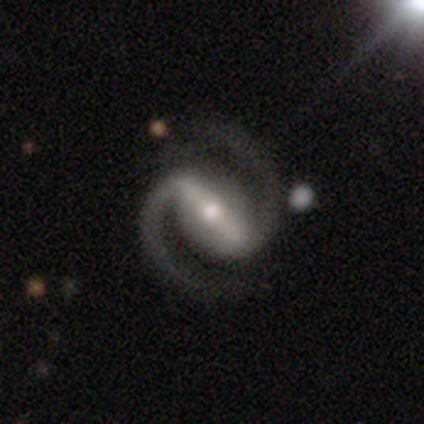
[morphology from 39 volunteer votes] A featured or disk galaxy (97%) with a strong bar (86%), 2 (100%) medium (72%) spiral arms (100%) and a moderate central bulge (58%). Merging: none (89%).